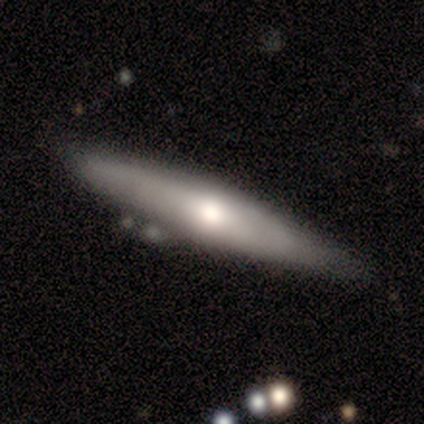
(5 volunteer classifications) featured or disk 80%, smooth 20%, star or artifact 0%. Down the decision tree: edge-on disk — yes (75%); edge-on bulge — none (67%); merging — none (80%).